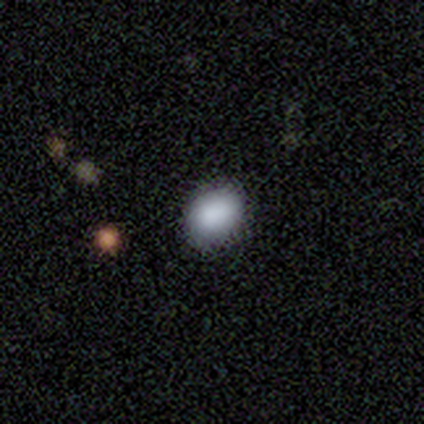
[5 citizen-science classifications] smooth 100%, featured or disk 0%, star or artifact 0%. Down the decision tree: how rounded — round (40%, tied with in between); merging — none (80%).